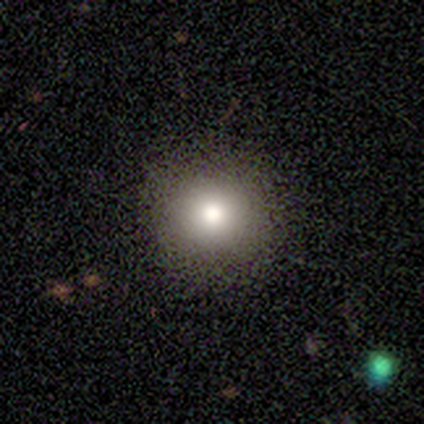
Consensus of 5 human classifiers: smooth-or-featured: smooth: 80% | star or artifact: 20% | featured or disk: 0%
  how-rounded: round: 100% | in between: 0% | cigar-shaped: 0%
  merging: none: 100% | minor disturbance: 0% | major disturbance: 0% | merger: 0%